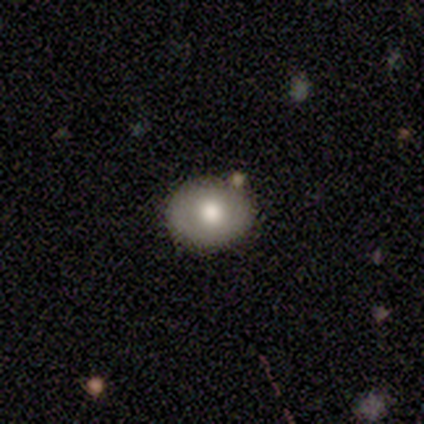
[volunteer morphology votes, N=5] smooth_or_featured: smooth (p=0.80) [alt: featured or disk p=0.20]
how_rounded: round (p=0.75) [alt: in between p=0.25]
merging: none (p=0.80) [alt: minor disturbance p=0.20]